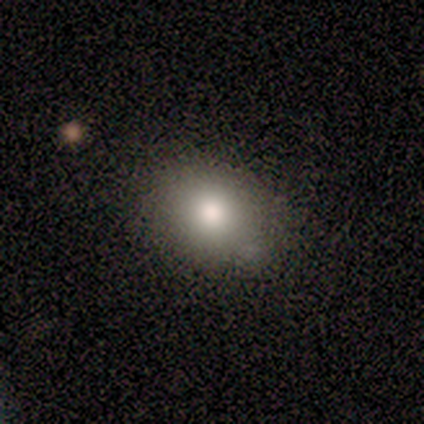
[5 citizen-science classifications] Smooth or featured?
  - smooth: 100% *
  - featured or disk: 0%
  - star or artifact: 0%
How rounded?
  - round: 60% *
  - in between: 40%
  - cigar-shaped: 0%
Merging?
  - none: 60% *
  - minor disturbance: 40%
  - major disturbance: 0%
  - merger: 0%